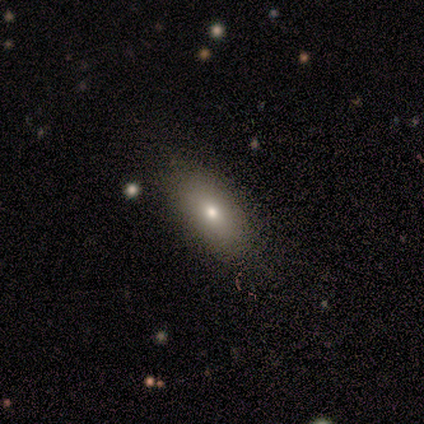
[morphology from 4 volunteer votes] A smooth galaxy with no disk features (100%) that is in between round and cigar-shaped (75%). Merging: none (100%).